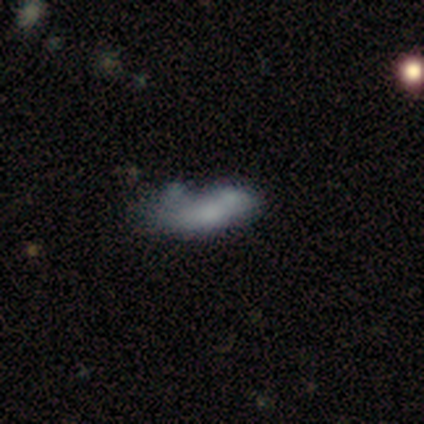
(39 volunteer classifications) smooth_or_featured: smooth (p=0.64) [alt: featured or disk p=0.28]
how_rounded: in between (p=0.84) [alt: round p=0.08]
merging: merger (p=0.42) [alt: none p=0.25]